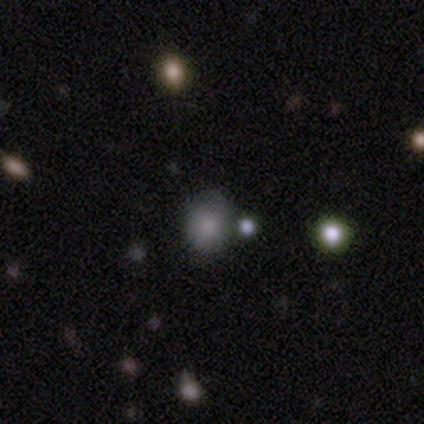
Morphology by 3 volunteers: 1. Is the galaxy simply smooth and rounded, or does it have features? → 100% smooth, 0% featured or disk, 0% star or artifact.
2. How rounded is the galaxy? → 67% round, 33% in between, 0% cigar-shaped.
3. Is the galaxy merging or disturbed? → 67% merger, 33% none, 0% minor disturbance, 0% major disturbance.